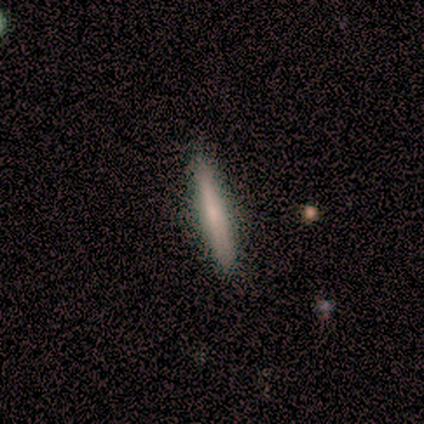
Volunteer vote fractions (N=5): Smooth or featured?
  - smooth: 80% *
  - featured or disk: 20%
  - star or artifact: 0%
How rounded?
  - cigar-shaped: 100% *
  - round: 0%
  - in between: 0%
Merging?
  - none: 80% *
  - minor disturbance: 20%
  - major disturbance: 0%
  - merger: 0%